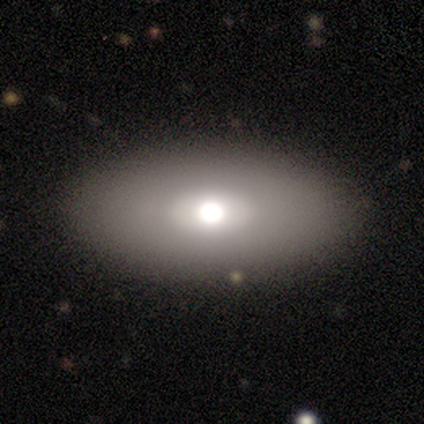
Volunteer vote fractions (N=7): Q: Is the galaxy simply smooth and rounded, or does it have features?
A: smooth — 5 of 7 (71%).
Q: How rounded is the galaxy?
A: in between — 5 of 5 (100%).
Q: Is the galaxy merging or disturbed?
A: none — 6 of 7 (86%).